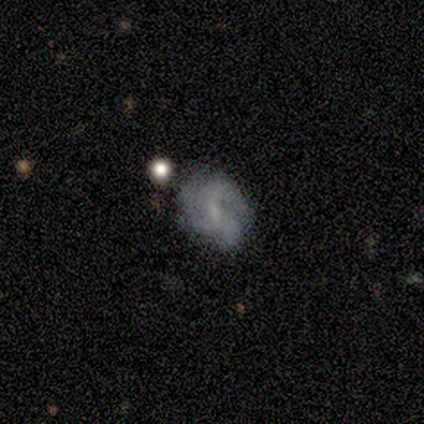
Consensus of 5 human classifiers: featured or disk 80%, smooth 20%, star or artifact 0%. Down the decision tree: edge-on disk — no (100%); bar — weak (75%); spiral arms — yes (50%, tied with no); spiral arm count — 3 (100%); spiral winding — medium (50%, tied with loose); bulge size — small (50%); merging — none (60%).